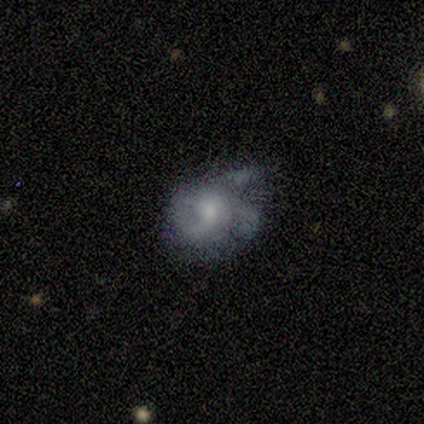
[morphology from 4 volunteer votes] Overall: featured or disk (100%). Edge-on disk: no (100%). Bar: no (100%). Spiral arms: yes (75%). Spiral arm count: 1 (33%, tied with 3 and can't tell). Spiral winding: medium (67%; tight 33%). Bulge size: moderate (75%). Merging: none (50%, tied with minor disturbance).